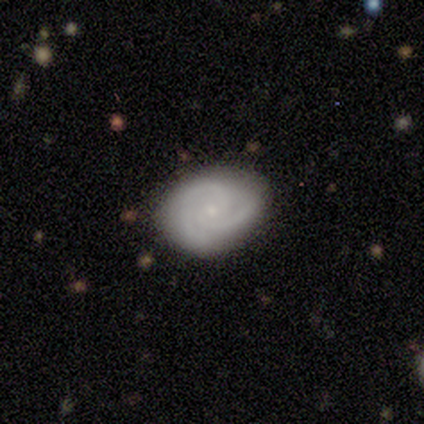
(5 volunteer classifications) Q: Smooth or featured?
A: featured or disk (80%); runner-up: smooth (20%)
Q: Edge-on disk?
A: no (100%)
Q: Bar?
A: no (100%)
Q: Spiral arms?
A: yes (100%)
Q: Spiral winding?
A: tight (50%); tied with: medium (50%)
Q: Spiral arm count?
A: 2 (50%); tied with: 3 (50%)
Q: Bulge size?
A: small (100%)
Q: Merging?
A: none (80%); runner-up: minor disturbance (20%)